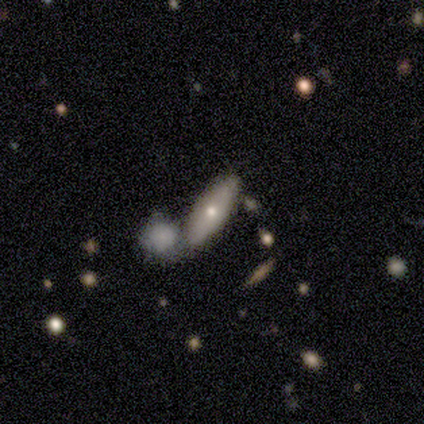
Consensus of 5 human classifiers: Smooth or featured? 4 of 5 (80%) said smooth. How rounded? 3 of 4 (75%) said in between. Merging? 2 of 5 (40%, tied with merger) said none.